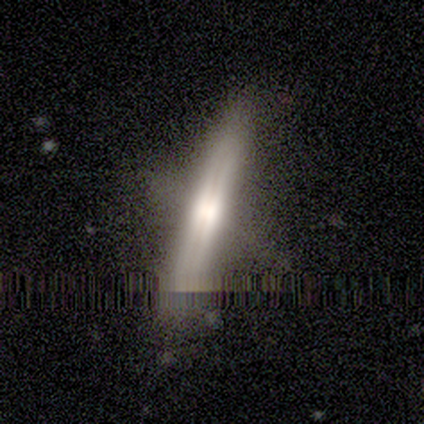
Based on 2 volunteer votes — Overall: featured or disk (100%). Edge-on disk: yes (100%). Edge-on bulge: none (100%). Merging: none (100%).